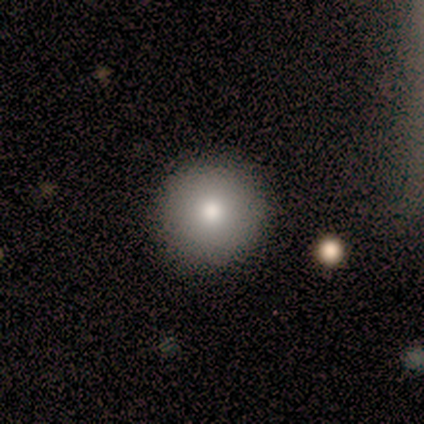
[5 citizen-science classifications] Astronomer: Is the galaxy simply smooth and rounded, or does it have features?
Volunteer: smooth — 80%.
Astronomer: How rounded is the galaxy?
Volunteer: round — 100%.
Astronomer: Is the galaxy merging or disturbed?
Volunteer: none — 100%.